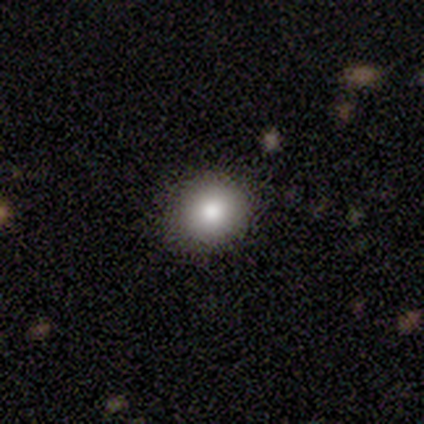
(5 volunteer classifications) smooth_or_featured: smooth (p=0.60) [alt: featured or disk p=0.20]
how_rounded: round (p=0.67) [alt: in between p=0.33]
merging: none (p=1.00)